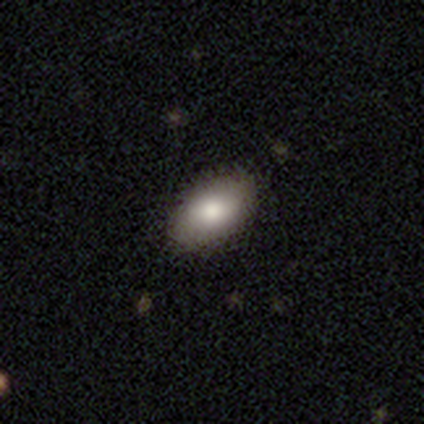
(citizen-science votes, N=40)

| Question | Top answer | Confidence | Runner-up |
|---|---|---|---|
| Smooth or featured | smooth | 90% | featured or disk (10%) |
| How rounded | in between | 94% | round (6%) |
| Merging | none | 78% | minor disturbance (18%) |